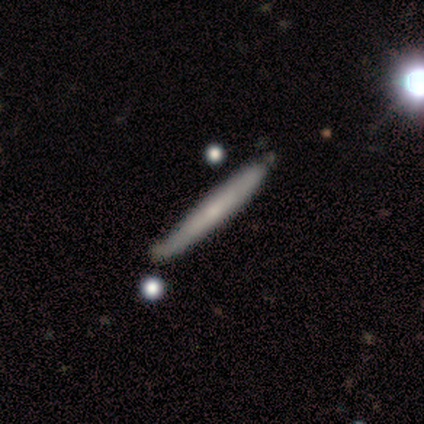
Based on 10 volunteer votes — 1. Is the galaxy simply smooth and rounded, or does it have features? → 80% smooth, 20% featured or disk, 0% star or artifact.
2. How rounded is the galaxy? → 100% cigar-shaped, 0% round, 0% in between.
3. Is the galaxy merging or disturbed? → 70% none, 20% minor disturbance, 10% major disturbance, 0% merger.